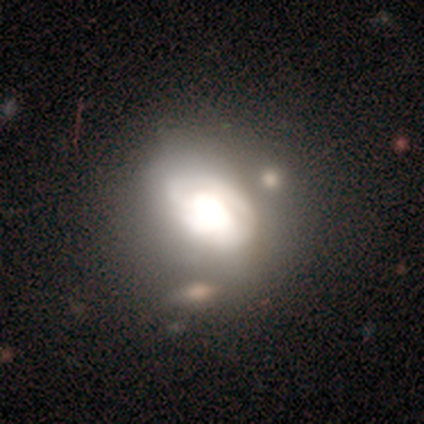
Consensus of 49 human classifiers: Smooth or featured? featured or disk (51%)
Edge-on disk? no (96%)
Bar? no (79%)
Spiral arms? no (71%)
Bulge size? dominant (62%)
Merging? none (51%)